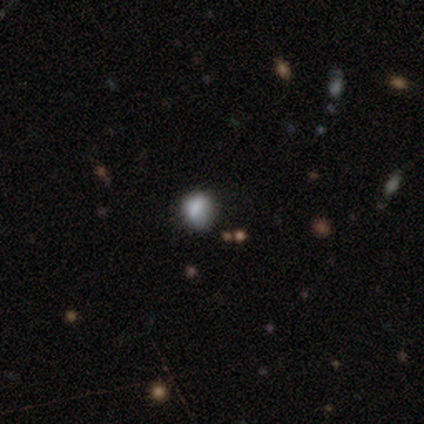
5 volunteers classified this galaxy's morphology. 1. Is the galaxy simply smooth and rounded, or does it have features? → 100% smooth, 0% featured or disk, 0% star or artifact.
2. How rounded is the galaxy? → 60% in between, 40% round, 0% cigar-shaped.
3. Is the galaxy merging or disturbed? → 40% none (tied), 40% minor disturbance (tied), 20% merger, 0% major disturbance.